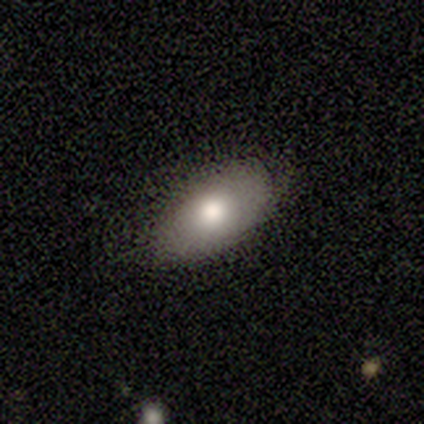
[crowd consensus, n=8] Volunteers were most divided on "merging": none: 57%, minor disturbance: 29%, merger: 14%, major disturbance: 0%. More confident: smooth or featured — smooth (88%); how rounded — in between (86%).